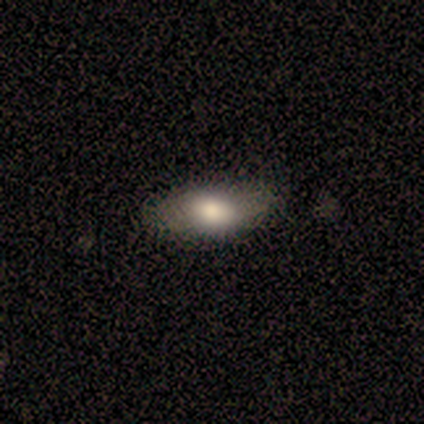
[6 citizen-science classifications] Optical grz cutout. It shows a featured or disk galaxy (50%) with no bar (100%), no spiral arms (100%) and a large central bulge (100%). Merging: none (80%).